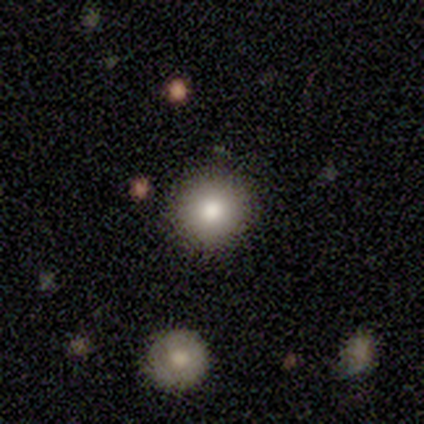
Volunteers were most divided on "smooth or featured": smooth: 76%, featured or disk: 18%, star or artifact: 6%. More confident: how rounded — round (100%); merging — none (94%).